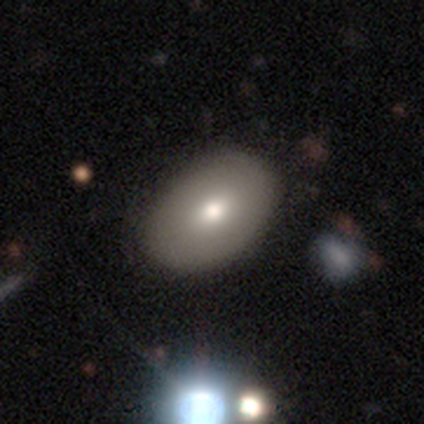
This appears to be a smooth galaxy with no disk features (80%) that is in between round and cigar-shaped (75%). Merging: none (100%).